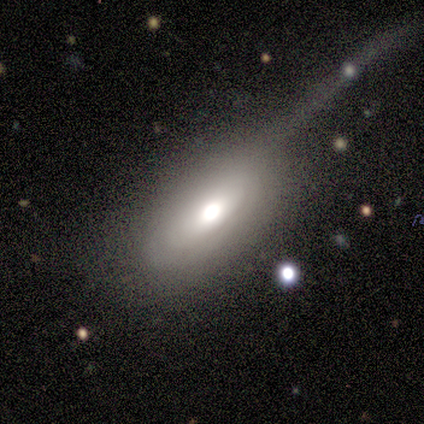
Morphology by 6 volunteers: A smooth galaxy with no disk features (67%) that is in between round and cigar-shaped (100%). Merging: minor disturbance (50%, tied with major disturbance).